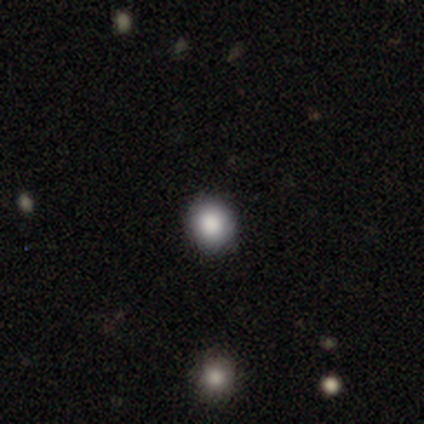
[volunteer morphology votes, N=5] This is clearly a smooth galaxy (80%). How rounded: clearly round (100%). Merging: clearly none (100%).